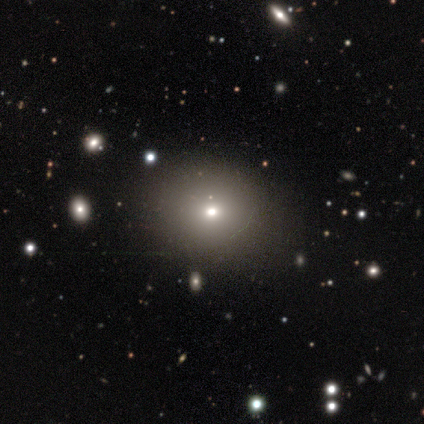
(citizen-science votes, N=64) smooth-or-featured: smooth: 62% | star or artifact: 25% | featured or disk: 12%
  how-rounded: round: 68% | in between: 32% | cigar-shaped: 0%
  merging: none: 58% | minor disturbance: 8% | major disturbance: 2% | merger: 0%